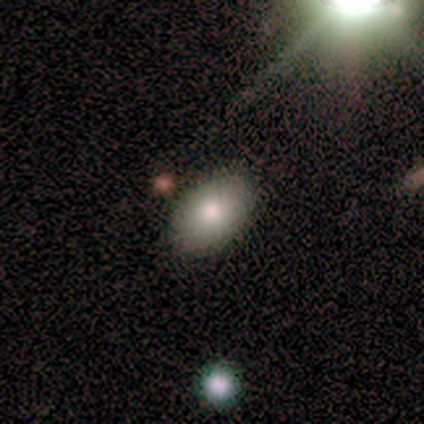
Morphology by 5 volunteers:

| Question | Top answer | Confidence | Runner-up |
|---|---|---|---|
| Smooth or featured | smooth | 60% | featured or disk (20%) |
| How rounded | in between | 100% | — |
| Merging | none | 100% | — |